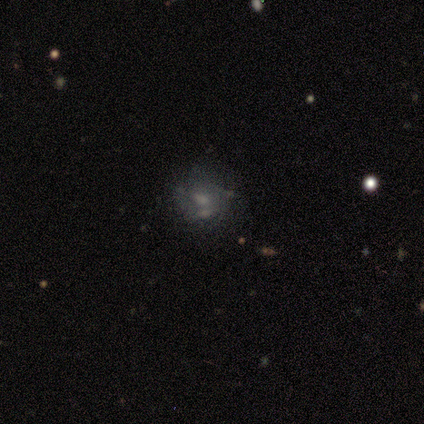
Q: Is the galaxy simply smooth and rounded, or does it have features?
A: featured or disk — 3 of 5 (60%).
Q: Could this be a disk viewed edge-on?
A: no — 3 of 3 (100%).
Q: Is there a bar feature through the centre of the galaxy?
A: no — 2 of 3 (67%).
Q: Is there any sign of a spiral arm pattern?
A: yes — 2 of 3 (67%).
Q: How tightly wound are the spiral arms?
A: medium — 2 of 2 (100%).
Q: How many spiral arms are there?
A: can't tell — 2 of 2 (100%).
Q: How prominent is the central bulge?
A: moderate — 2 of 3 (67%).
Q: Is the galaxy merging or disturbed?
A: merger — 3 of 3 (100%).